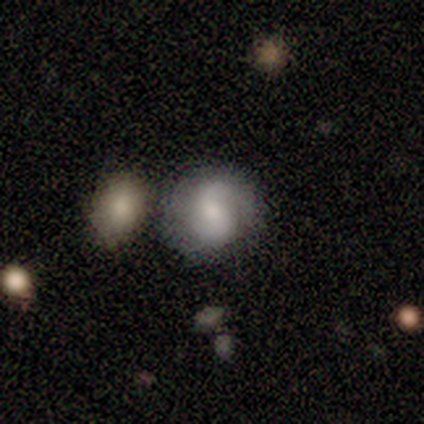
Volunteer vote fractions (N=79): Volunteers were most divided on "merging": none: 38%, merger: 30%, minor disturbance: 9%, major disturbance: 0%. Remaining: edge-on disk — no (100%); spiral arms — yes (77%); spiral arm count — 2 (72%); bar — no (70%); smooth or featured — featured or disk (59%); spiral winding — medium (44%); bulge size — small (43%).